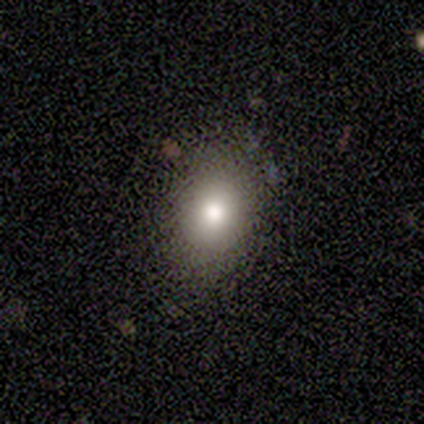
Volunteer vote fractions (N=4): Volunteers were most divided on "how rounded": round: 75%, in between: 25%, cigar-shaped: 0%. More confident: smooth or featured — smooth (100%); merging — none (75%).